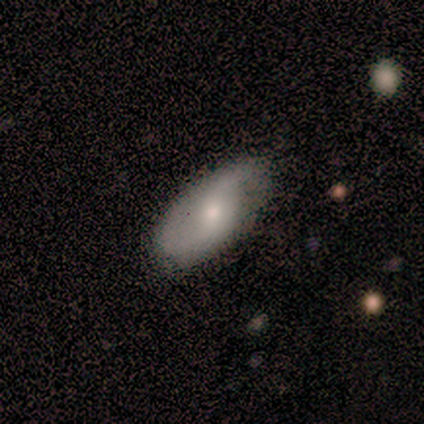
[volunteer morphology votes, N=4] Q: Smooth or featured?
A: smooth (50%); tied with: featured or disk (50%)
Q: How rounded?
A: in between (100%)
Q: Merging?
A: none (50%); tied with: minor disturbance (50%)